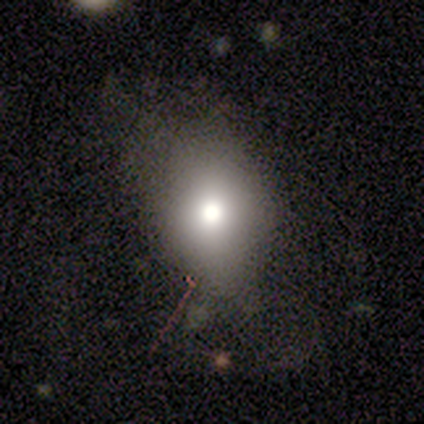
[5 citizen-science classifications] This appears to be a smooth galaxy with no disk features (80%) that is round (50%, tied with in between). Merging: none (50%).